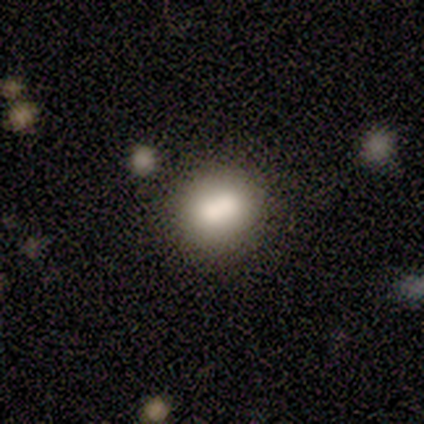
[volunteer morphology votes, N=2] smooth-or-featured: smooth: 100% | featured or disk: 0% | star or artifact: 0%
  how-rounded: in between: 100% | round: 0% | cigar-shaped: 0%
  merging: none: 50% (tied) | merger: 50% (tied) | minor disturbance: 0% | major disturbance: 0%